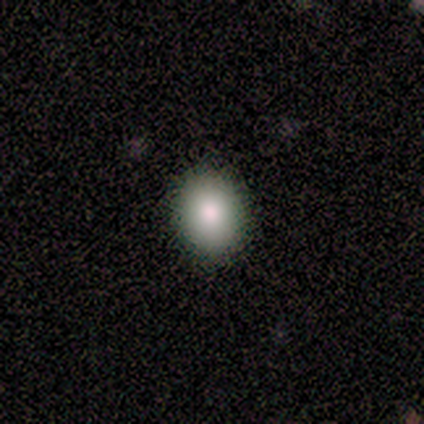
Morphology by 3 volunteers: Smooth or featured: smooth — 67% (featured or disk — 33%)
How rounded: in between — 100%
Merging: none — 100%